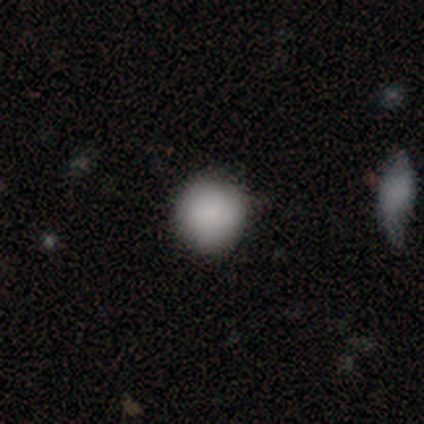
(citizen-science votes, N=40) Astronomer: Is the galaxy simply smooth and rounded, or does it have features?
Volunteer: smooth — 88%.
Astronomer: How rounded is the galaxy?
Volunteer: round — 91%.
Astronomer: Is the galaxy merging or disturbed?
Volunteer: none — 95%.